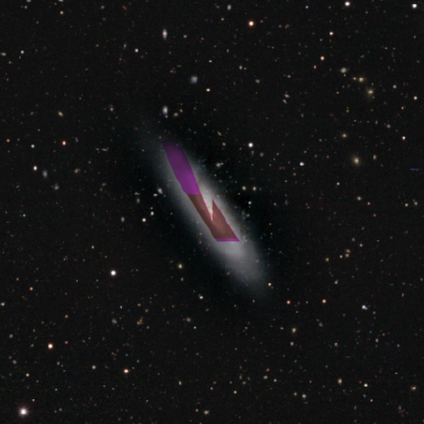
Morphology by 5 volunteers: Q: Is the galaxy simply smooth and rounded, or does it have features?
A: star or artifact — 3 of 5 (60%).